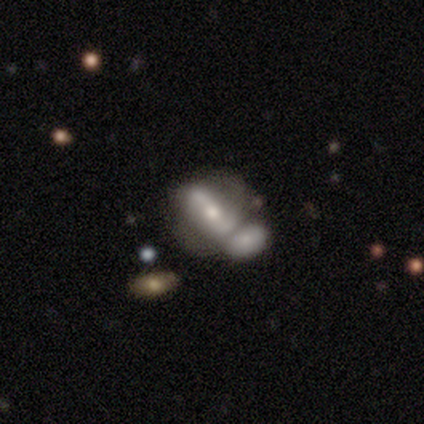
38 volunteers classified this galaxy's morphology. Q: Smooth or featured?
A: featured or disk (66%); runner-up: smooth (34%)
Q: Edge-on disk?
A: no (88%); runner-up: yes (12%)
Q: Bar?
A: strong (59%); runner-up: no (23%)
Q: Spiral arms?
A: yes (55%); runner-up: no (45%)
Q: Spiral winding?
A: tight (33%); tied with: medium (33%); loose (33%)
Q: Spiral arm count?
A: 2 (92%); runner-up: can't tell (8%)
Q: Bulge size?
A: moderate (59%); runner-up: small (23%)
Q: Merging?
A: merger (55%); runner-up: none (29%)